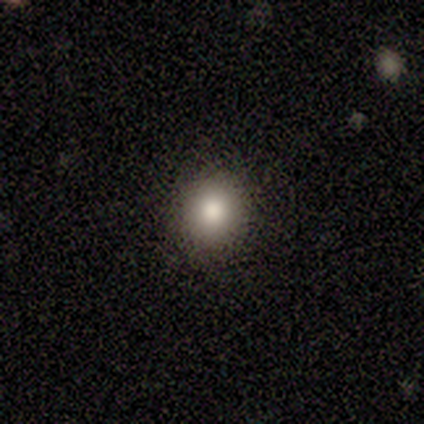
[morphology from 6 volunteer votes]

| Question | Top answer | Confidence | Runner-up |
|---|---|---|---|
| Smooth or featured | smooth | 83% | star or artifact (17%) |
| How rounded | round | 80% | in between (20%) |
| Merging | none | 100% | — |